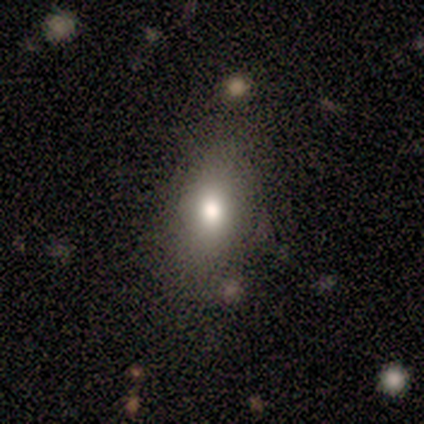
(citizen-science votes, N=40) Smooth or featured?
  - smooth: 70% *
  - featured or disk: 20%
  - star or artifact: 10%
How rounded?
  - in between: 82% *
  - round: 18%
  - cigar-shaped: 0%
Merging?
  - none: 75% *
  - minor disturbance: 14%
  - major disturbance: 6%
  - merger: 6%